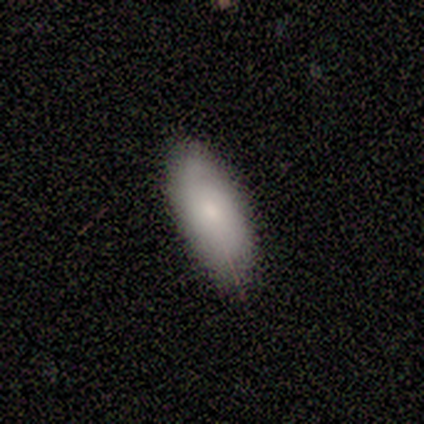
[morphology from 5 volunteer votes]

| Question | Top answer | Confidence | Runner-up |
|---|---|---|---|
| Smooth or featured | smooth | 80% | featured or disk (20%) |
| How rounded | in between | 100% | — |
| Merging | none | 80% | minor disturbance (20%) |